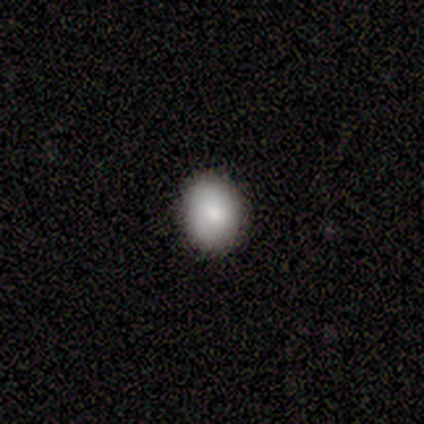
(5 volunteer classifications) This appears to be a smooth galaxy with no disk features (80%) that is in between round and cigar-shaped (75%). Merging: none (100%).